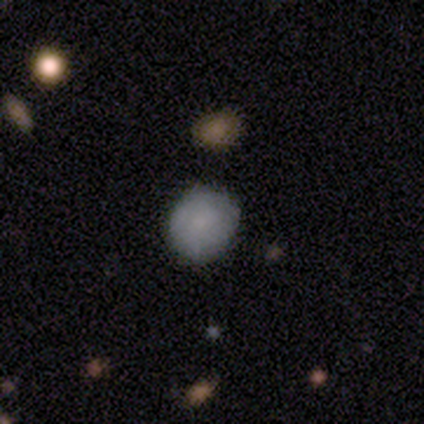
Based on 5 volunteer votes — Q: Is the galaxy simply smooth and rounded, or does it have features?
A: smooth — 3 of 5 (60%).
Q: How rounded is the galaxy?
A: round — 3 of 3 (100%).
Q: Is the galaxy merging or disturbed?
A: none — 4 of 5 (80%).